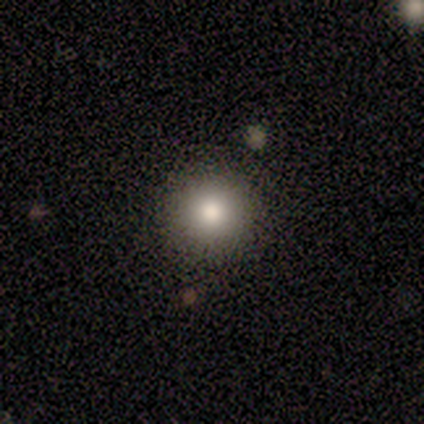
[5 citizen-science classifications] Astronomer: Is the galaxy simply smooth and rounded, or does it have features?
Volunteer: smooth — 60%.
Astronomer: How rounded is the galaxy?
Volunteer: round — 100%.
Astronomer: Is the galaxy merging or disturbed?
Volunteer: none — 75%.